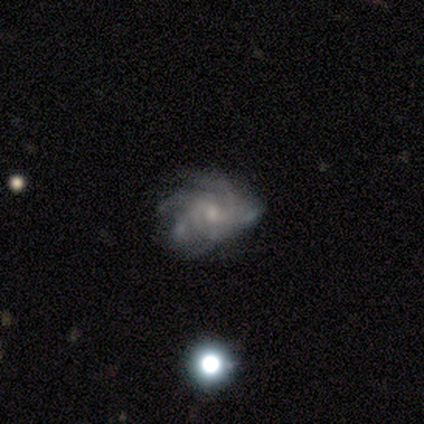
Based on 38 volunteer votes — Smooth or featured: featured or disk — 92% (star or artifact — 8%)
Edge-on disk: no — 100%
Bar: no — 60% (weak — 37%)
Spiral arms: yes — 100%
Spiral winding: medium — 54% (tight — 40%)
Spiral arm count: can't tell — 40% (4 — 34%)
Bulge size: small — 54% (moderate — 29%)
Merging: none — 57% (minor disturbance — 31%)